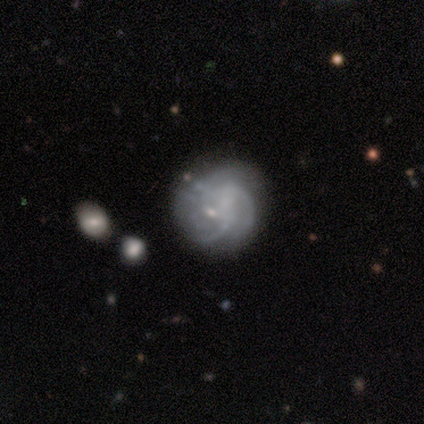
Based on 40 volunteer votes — Overall: featured or disk (92%). Edge-on disk: no (95%). Bar: no (66%; weak 31%). Spiral arms: yes (89%). Spiral arm count: 3 (42%; can't tell 32%). Spiral winding: tight (48%; medium 35%). Bulge size: small (57%; none 40%). Merging: none (32%; major disturbance 22%).